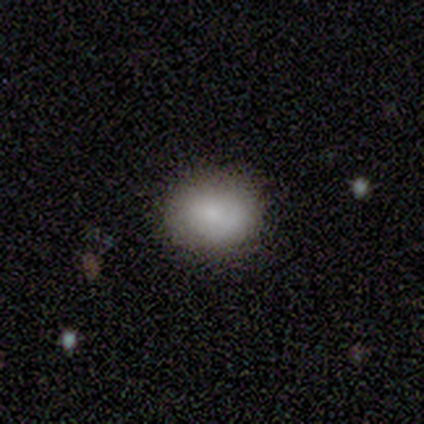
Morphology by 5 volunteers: Q: Smooth or featured?
A: smooth (100%)
Q: How rounded?
A: round (60%); runner-up: in between (40%)
Q: Merging?
A: none (100%)